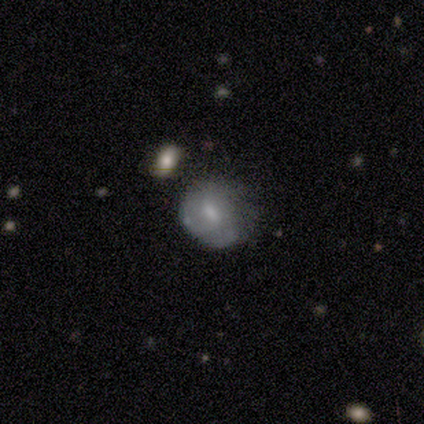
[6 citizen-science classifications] Volunteers were most divided on "merging" (2-way tie): none: 33%, minor disturbance: 33%, major disturbance: 17%, merger: 17%. More confident: edge-on disk — no (100%); bar — no (100%); spiral arms — no (75%); smooth or featured — featured or disk (67%); bulge size — moderate (50%).